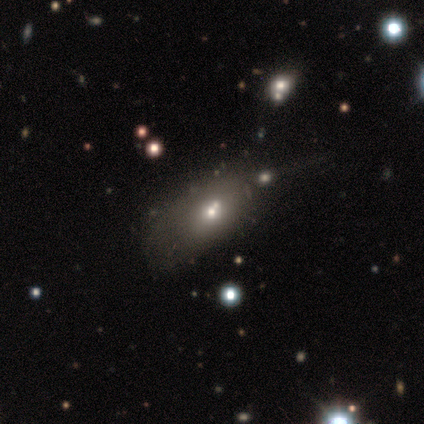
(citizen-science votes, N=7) Smooth or featured? smooth (43%, tied with featured or disk)
How rounded? in between (100%)
Merging? merger (67%)